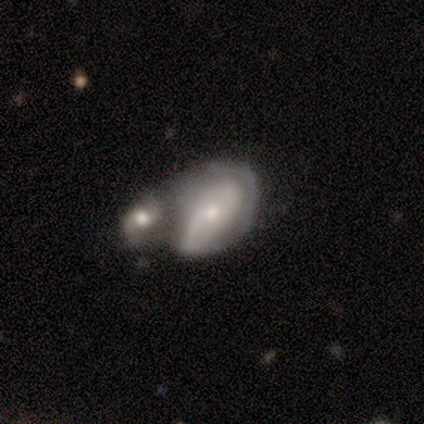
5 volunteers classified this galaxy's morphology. Overall: smooth (60%; featured or disk 40%). How rounded: in between (67%; round 33%). Merging: merger (80%).